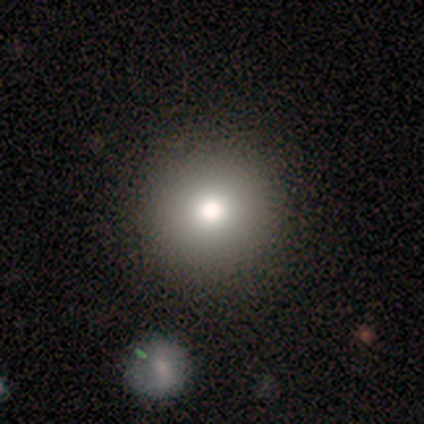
Morphology: type=smooth (76%); roundness=round (100%); merging=none (91%).